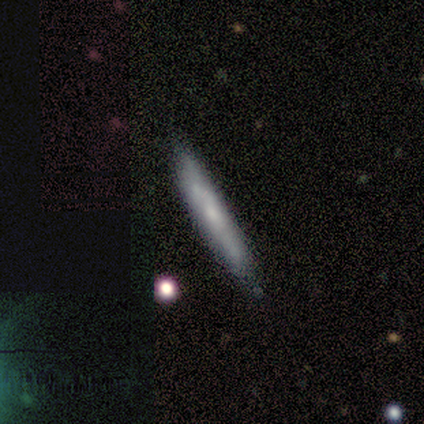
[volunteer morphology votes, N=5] smooth_or_featured: featured or disk (p=0.80) [alt: smooth p=0.20]
disk_edge_on: yes (p=0.75) [alt: no p=0.25]
edge_on_bulge: none (p=0.67) [alt: rounded p=0.33]
merging: none (p=1.00)